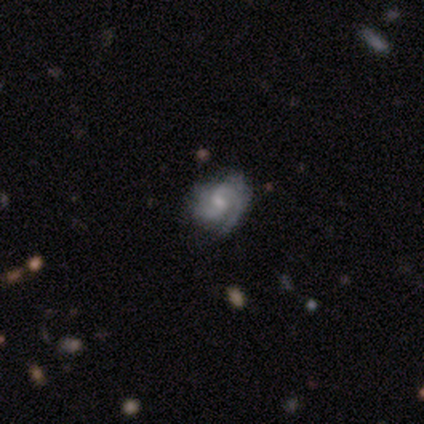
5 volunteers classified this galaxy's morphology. featured or disk 60%, smooth 20%, star or artifact 20%. Down the decision tree: edge-on disk — no (100%); bar — weak (100%); spiral arms — yes (100%); spiral arm count — 2 (100%); spiral winding — tight (67%); bulge size — small (67%); merging — none (100%).